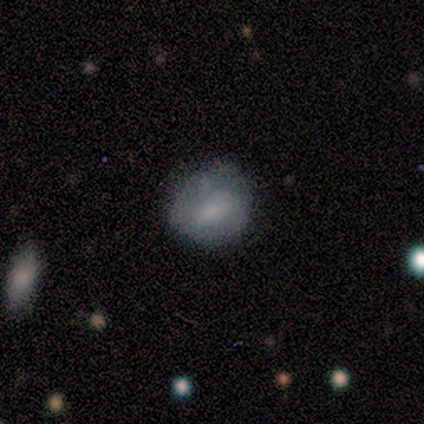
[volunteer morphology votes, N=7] Volunteers were most divided on "merging": none: 43%, minor disturbance: 29%, major disturbance: 29%, merger: 0%. More confident: smooth or featured — smooth (100%); how rounded — round (71%).